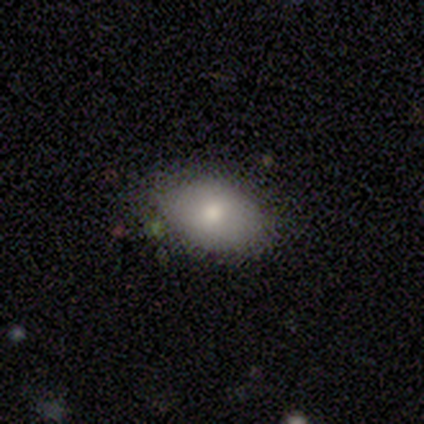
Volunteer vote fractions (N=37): smooth 81%, featured or disk 11%, star or artifact 8%. Down the decision tree: how rounded — in between (90%); merging — none (76%).